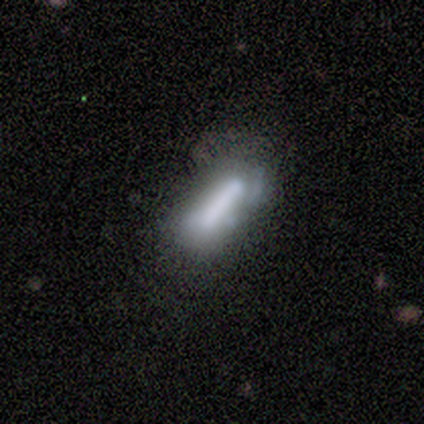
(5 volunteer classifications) smooth-or-featured: smooth: 60% | featured or disk: 20% | star or artifact: 20%
  how-rounded: cigar-shaped: 100% | round: 0% | in between: 0%
  merging: none: 50% | minor disturbance: 25% | merger: 25% | major disturbance: 0%